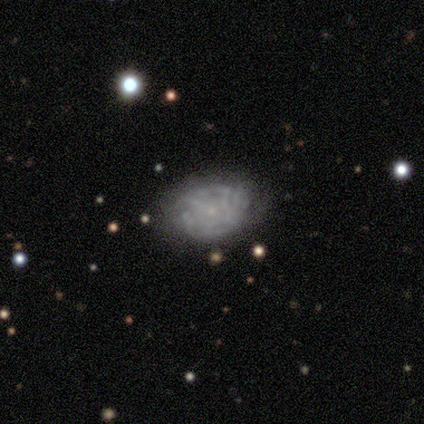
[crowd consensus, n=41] This appears to be a featured or disk galaxy (80%) with no bar (88%), tight (72%) spiral arms (55%) and a small central bulge (76%). Merging: none (63%).